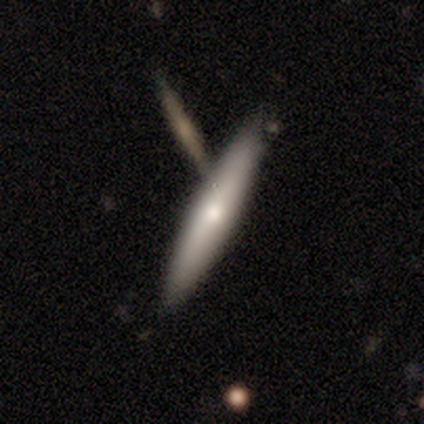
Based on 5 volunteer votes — A smooth galaxy with no disk features (80%) that is cigar-shaped (75%).

Vote fractions:
- Smooth or featured? smooth: 80% / featured or disk: 20% / star or artifact: 0%
- How rounded? cigar-shaped: 75% / in between: 25% / round: 0%
- Merging? none: 80% / minor disturbance: 20% / major disturbance: 0% / merger: 0%